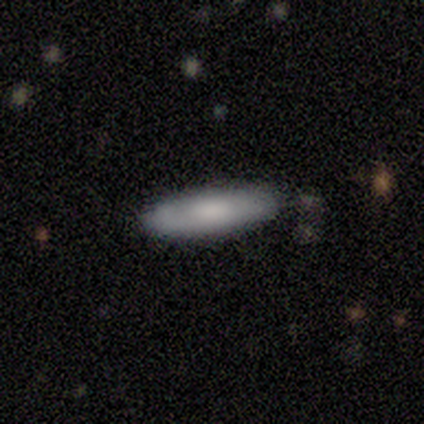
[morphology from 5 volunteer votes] Overall: smooth (100%). How rounded: cigar-shaped (100%). Merging: none (100%).